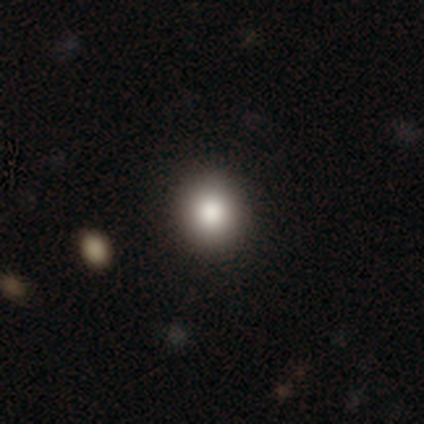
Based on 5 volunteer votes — smooth_or_featured: smooth (p=0.60) [alt: featured or disk p=0.40]
how_rounded: round (p=1.00)
merging: none (p=0.80) [alt: minor disturbance p=0.20]